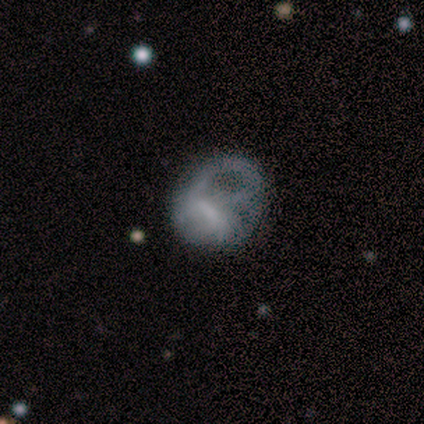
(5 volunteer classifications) Volunteers were most divided on "smooth or featured": smooth: 60%, featured or disk: 40%, star or artifact: 0%. More confident: how rounded — in between (100%); merging — major disturbance (80%).